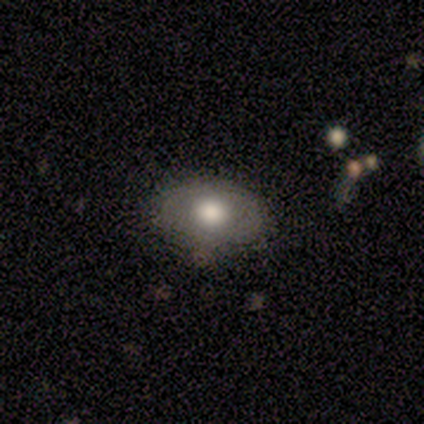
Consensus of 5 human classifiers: Smooth or featured?
  - smooth: 60% *
  - featured or disk: 40%
  - star or artifact: 0%
How rounded?
  - in between: 100% *
  - round: 0%
  - cigar-shaped: 0%
Merging?
  - none: 80% *
  - minor disturbance: 20%
  - major disturbance: 0%
  - merger: 0%